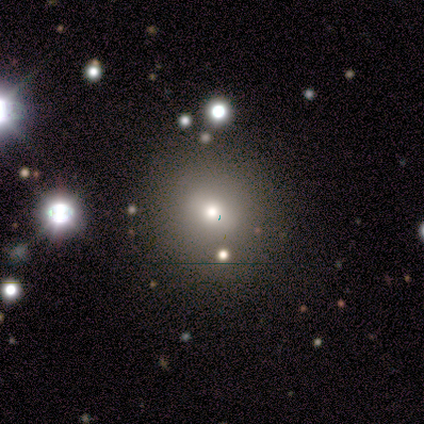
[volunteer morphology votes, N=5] A smooth galaxy with no disk features (60%) that is in between round and cigar-shaped (67%). Merging: none (100%).